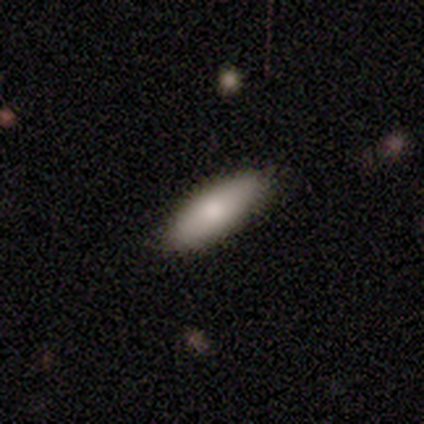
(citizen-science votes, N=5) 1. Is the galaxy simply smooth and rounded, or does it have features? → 100% smooth, 0% featured or disk, 0% star or artifact.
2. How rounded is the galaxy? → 60% in between, 40% cigar-shaped, 0% round.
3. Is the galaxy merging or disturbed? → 80% none, 20% minor disturbance, 0% major disturbance, 0% merger.